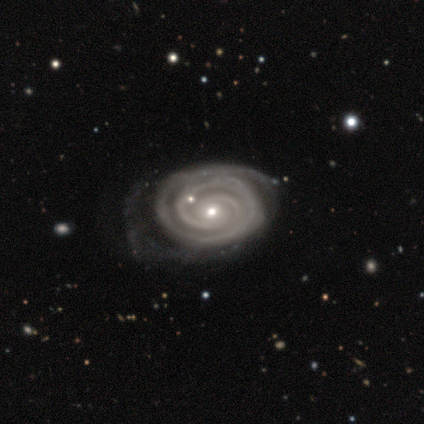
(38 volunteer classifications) A featured or disk galaxy (95%) with no bar (71%), 2 (56%) tight (88%) spiral arms (100%) and a small central bulge (65%). Merging: none (57%).